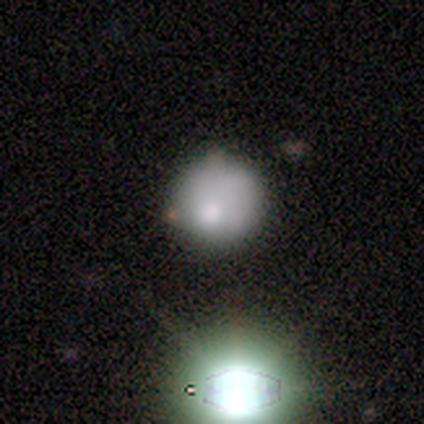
Smooth or featured? 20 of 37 (54%) said smooth. How rounded? 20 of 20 (100%) said round. Merging? 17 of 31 (55%) said none.